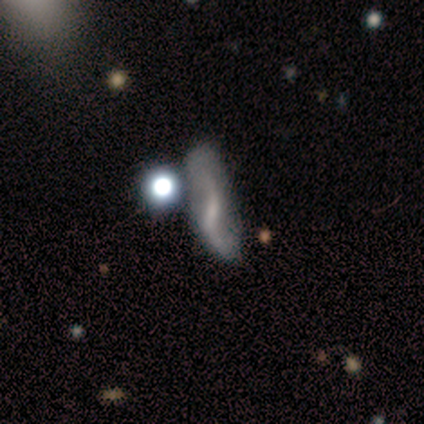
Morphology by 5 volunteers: A smooth galaxy with no disk features (40%, tied with featured or disk) that is in between round and cigar-shaped (50%, tied with cigar-shaped). Merging: major disturbance (50%).